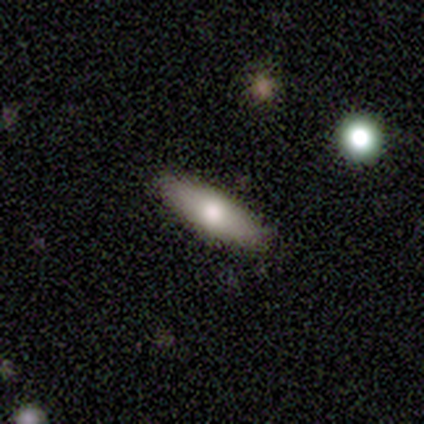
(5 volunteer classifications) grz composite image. It shows a smooth galaxy with no disk features (80%) that is in between round and cigar-shaped (50%, tied with cigar-shaped). Merging: none (80%).